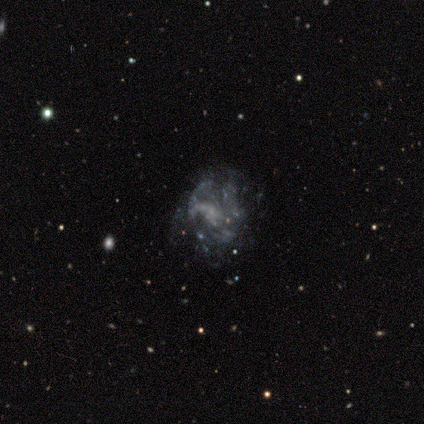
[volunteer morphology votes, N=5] type=featured or disk (80%); edge-on=no (100%); bar=no (50%); spiral arms=yes (100%); winding=medium (50%, tied with loose); arm count=2 (50%); bulge=none (75%); merging=major disturbance (50%).